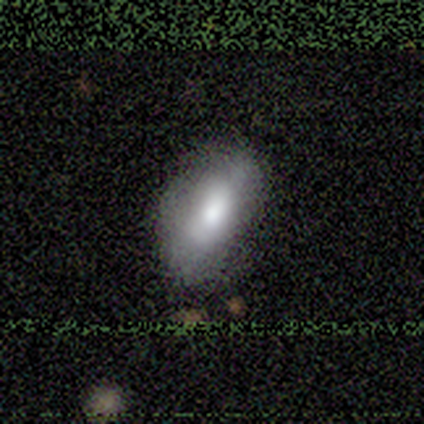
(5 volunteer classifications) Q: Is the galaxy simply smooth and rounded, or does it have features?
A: smooth — 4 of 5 (80%).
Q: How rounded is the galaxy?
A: in between — 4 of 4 (100%).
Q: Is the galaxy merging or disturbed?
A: none — 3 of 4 (75%).